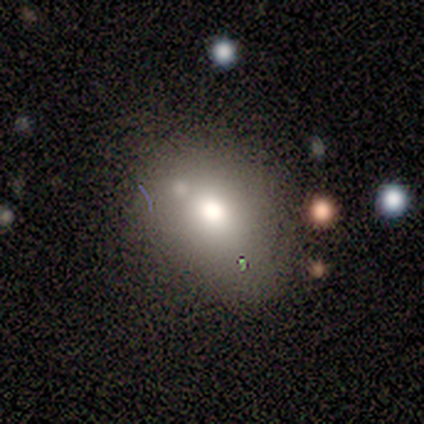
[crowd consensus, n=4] smooth 75%, featured or disk 25%, star or artifact 0%. Down the decision tree: how rounded — in between (67%); merging — minor disturbance (50%).